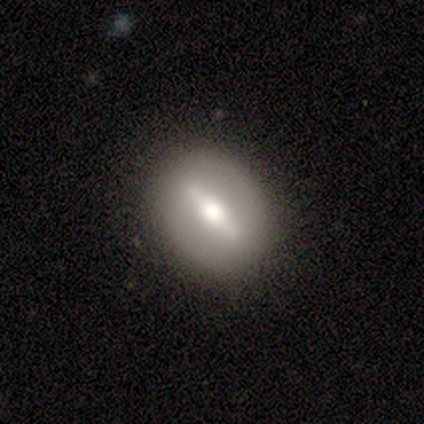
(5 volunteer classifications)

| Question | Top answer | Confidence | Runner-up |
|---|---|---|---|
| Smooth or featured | smooth | 40% | tied: featured or disk (40%) |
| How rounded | in between | 100% | — |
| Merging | none | 100% | — |